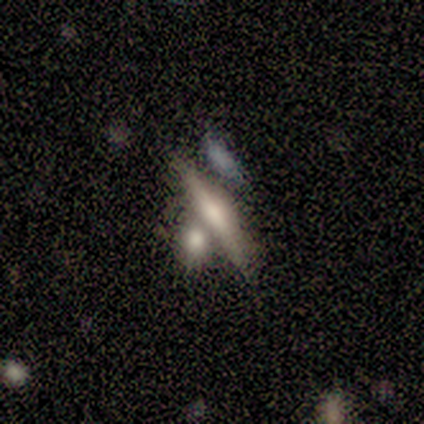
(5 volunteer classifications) A featured or disk galaxy (60%) viewed edge-on (67%) with no central bulge (50%, tied with rounded).

Vote fractions:
- Smooth or featured? featured or disk: 60% / smooth: 40% / star or artifact: 0%
- Edge-on disk? yes: 67% / no: 33%
- Edge-on bulge? none: 50% (tied) / rounded: 50% (tied) / boxy: 0%
- Merging? none: 60% / major disturbance: 20% / merger: 20% / minor disturbance: 0%